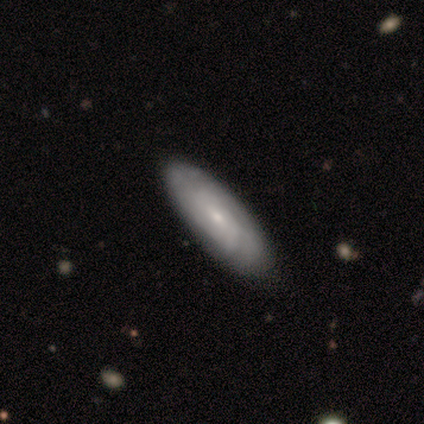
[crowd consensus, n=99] A featured or disk galaxy (53%) with no bar (71%), tight (80%) spiral arms (73%) and a small central bulge (75%).

Vote fractions:
- Smooth or featured? featured or disk: 53% / smooth: 42% / star or artifact: 5%
- Edge-on disk? no: 92% / yes: 8%
- Bar? no: 71% / weak: 23% / strong: 6%
- Spiral arms? yes: 73% / no: 27%
- Spiral winding? tight: 80% / medium: 11% / loose: 9%
- Spiral arm count? can't tell: 57% / 2: 23% / 3: 14% / 1: 3% / 4: 3% / more than 4: 0%
- Bulge size? small: 75% / moderate: 23% / none: 2% / dominant: 0% / large: 0%
- Merging? none: 73% / minor disturbance: 24% / major disturbance: 1% / merger: 1%